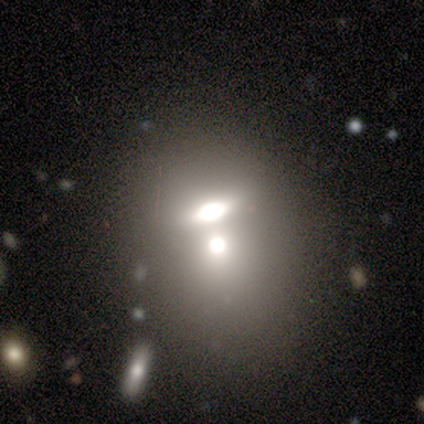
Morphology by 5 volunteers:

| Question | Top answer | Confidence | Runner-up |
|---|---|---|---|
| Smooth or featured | smooth | 80% | featured or disk (20%) |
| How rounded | in between | 100% | — |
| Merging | none | 60% | minor disturbance (20%) |